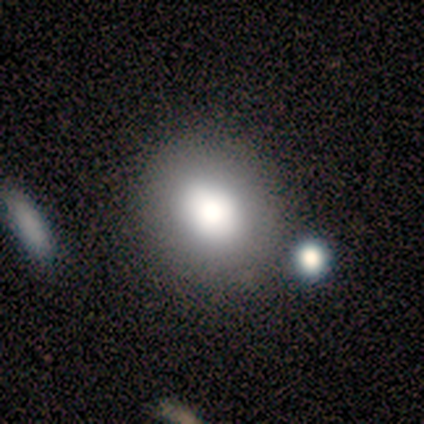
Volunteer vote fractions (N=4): A smooth galaxy with no disk features (100%) that is in between round and cigar-shaped (75%). Merging: none (50%, tied with minor disturbance).